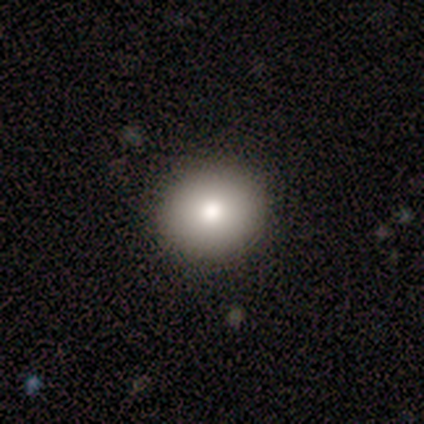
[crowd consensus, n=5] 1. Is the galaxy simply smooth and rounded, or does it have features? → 100% smooth, 0% featured or disk, 0% star or artifact.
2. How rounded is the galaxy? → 80% round, 20% in between, 0% cigar-shaped.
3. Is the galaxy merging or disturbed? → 60% none, 20% minor disturbance, 20% major disturbance, 0% merger.